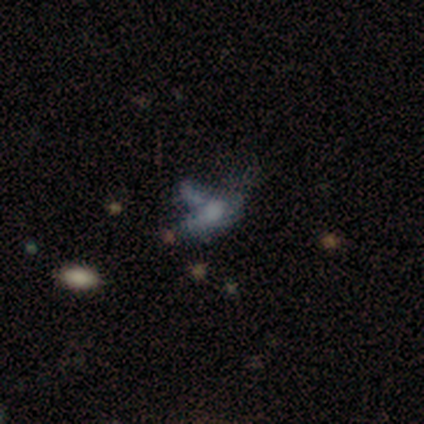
A smooth galaxy with no disk features (60%) that is in between round and cigar-shaped (67%).

Vote fractions:
- Smooth or featured? smooth: 60% / featured or disk: 40% / star or artifact: 0%
- How rounded? in between: 67% / cigar-shaped: 33% / round: 0%
- Merging? major disturbance: 60% / none: 40% / minor disturbance: 0% / merger: 0%